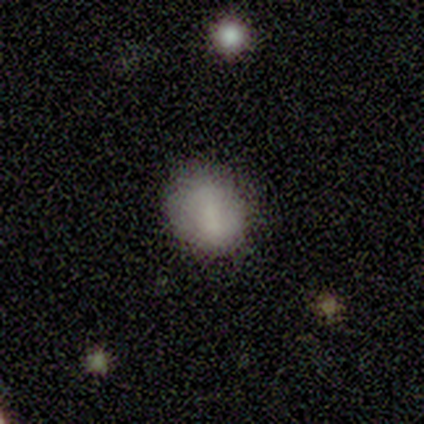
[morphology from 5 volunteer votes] This is clearly a smooth galaxy (80%). How rounded: possibly round (50%, tied with in between). Merging: likely none (60%).